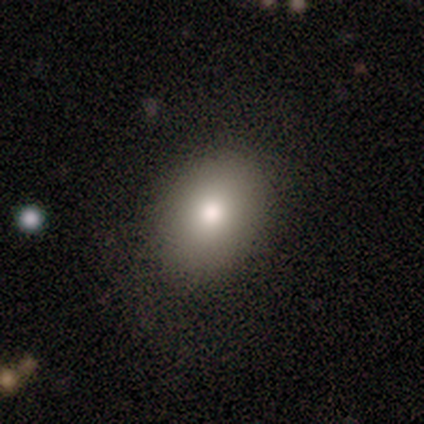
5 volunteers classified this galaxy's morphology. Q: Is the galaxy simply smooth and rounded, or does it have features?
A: smooth — 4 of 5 (80%).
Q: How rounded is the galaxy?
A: round — 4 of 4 (100%).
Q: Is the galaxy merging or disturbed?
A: none — 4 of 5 (80%).